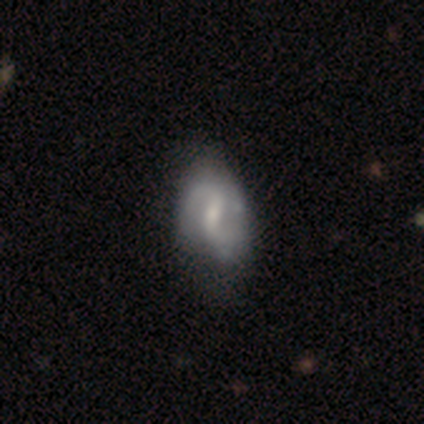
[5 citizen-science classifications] Smooth or featured: featured or disk — 80% (smooth — 20%)
Edge-on disk: no — 100%
Bar: weak — 75% (strong — 25%)
Spiral arms: yes — 100%
Spiral winding: medium — 50% (tied with loose — 50%)
Spiral arm count: 2 — 100%
Bulge size: small — 75% (none — 25%)
Merging: none — 60% (minor disturbance — 40%)